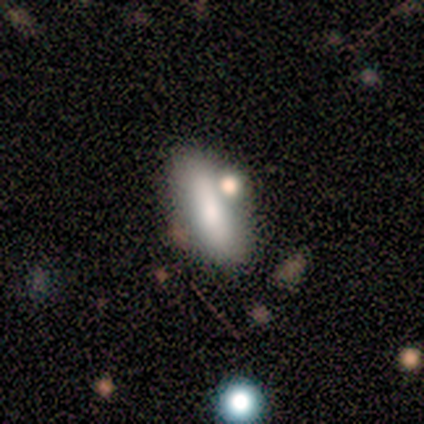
Smooth or featured? 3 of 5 (60%) said smooth. How rounded? 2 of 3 (67%) said cigar-shaped. Merging? 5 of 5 (100%) said none.